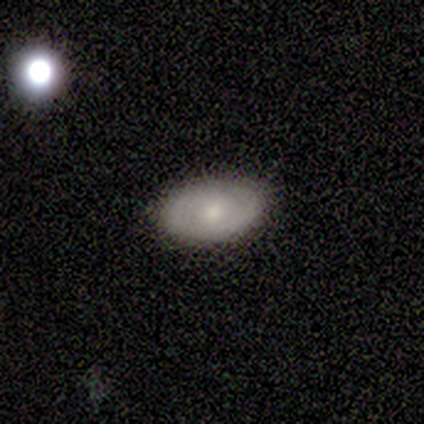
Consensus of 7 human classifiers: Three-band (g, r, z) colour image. It shows a featured or disk galaxy (57%) with no bar (100%), 1 (33%, tied with 2 and can't tell) tight (100%) spiral arms (75%) and a moderate central bulge (50%, tied with small). Merging: none (83%).